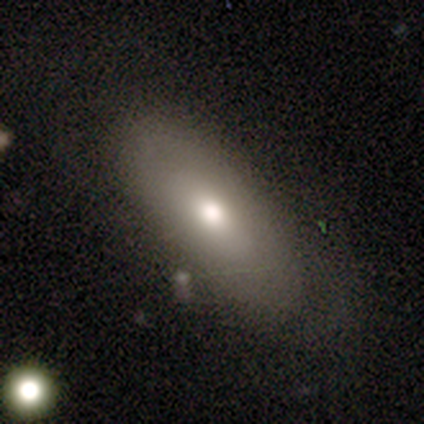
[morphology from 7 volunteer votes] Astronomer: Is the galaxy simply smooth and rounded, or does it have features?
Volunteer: smooth — 71%.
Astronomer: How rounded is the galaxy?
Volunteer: in between — 100%.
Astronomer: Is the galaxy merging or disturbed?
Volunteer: none — 57% (runner-up: minor disturbance, 43%).